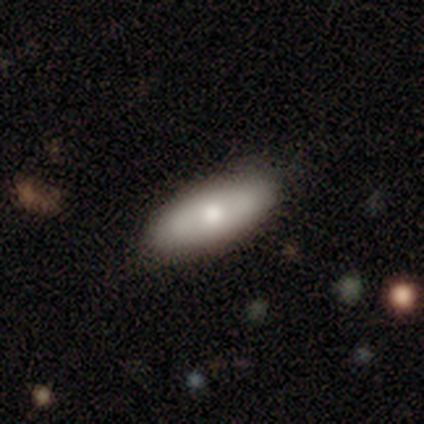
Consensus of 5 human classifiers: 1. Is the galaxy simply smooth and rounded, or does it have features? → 80% smooth, 20% featured or disk, 0% star or artifact.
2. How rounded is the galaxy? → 100% in between, 0% round, 0% cigar-shaped.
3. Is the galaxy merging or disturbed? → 100% none, 0% minor disturbance, 0% major disturbance, 0% merger.